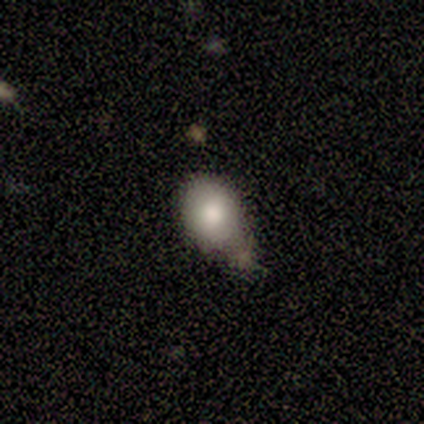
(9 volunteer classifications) This appears to be a smooth galaxy with no disk features (78%) that is in between round and cigar-shaped (57%). Merging: none (57%).